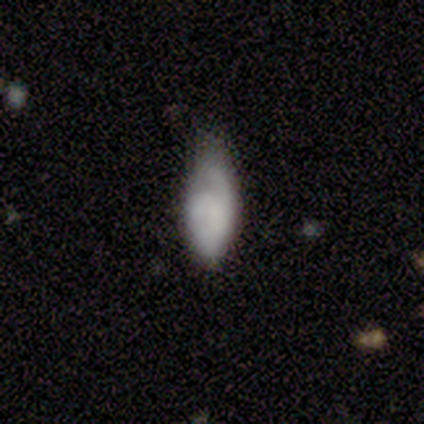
smooth_or_featured: smooth (p=0.65) [alt: featured or disk p=0.30]
how_rounded: in between (p=0.92) [alt: cigar-shaped p=0.08]
merging: minor disturbance (p=0.51) [alt: none p=0.37]